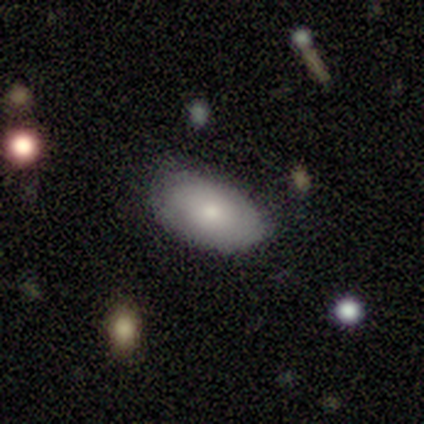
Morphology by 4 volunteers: Smooth or featured: smooth — 75% (featured or disk — 25%)
How rounded: in between — 100%
Merging: none — 50% (tied with minor disturbance — 50%)